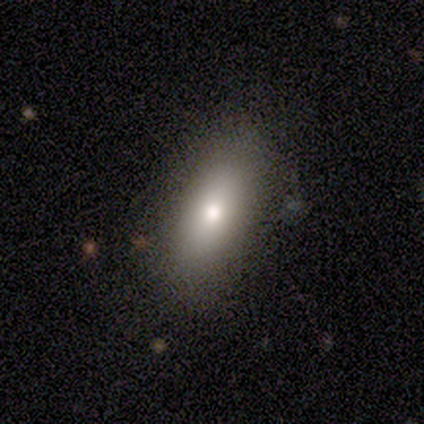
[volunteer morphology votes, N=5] smooth-or-featured: smooth: 100% | featured or disk: 0% | star or artifact: 0%
  how-rounded: in between: 100% | round: 0% | cigar-shaped: 0%
  merging: none: 100% | minor disturbance: 0% | major disturbance: 0% | merger: 0%